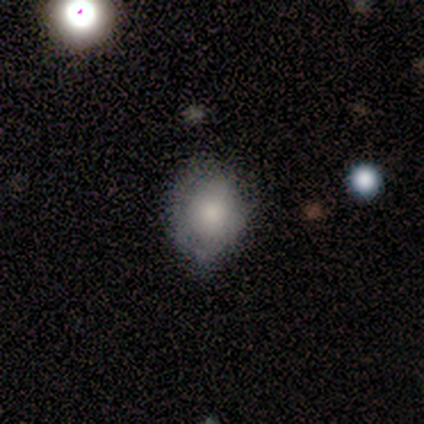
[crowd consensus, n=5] smooth-or-featured: smooth: 60% | featured or disk: 40% | star or artifact: 0%
  how-rounded: in between: 67% | round: 33% | cigar-shaped: 0%
  merging: none: 80% | major disturbance: 20% | minor disturbance: 0% | merger: 0%